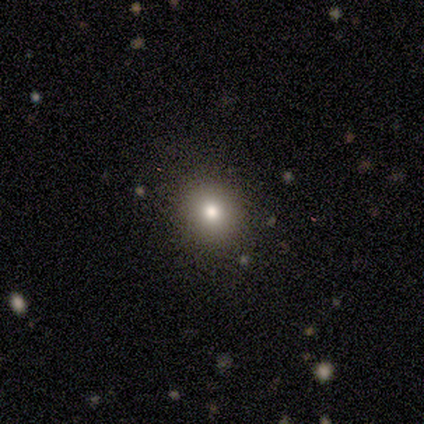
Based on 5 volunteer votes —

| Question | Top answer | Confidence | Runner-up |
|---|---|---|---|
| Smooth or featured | smooth | 80% | featured or disk (20%) |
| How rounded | round | 50% | tied: in between (50%) |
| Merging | none | 80% | minor disturbance (20%) |